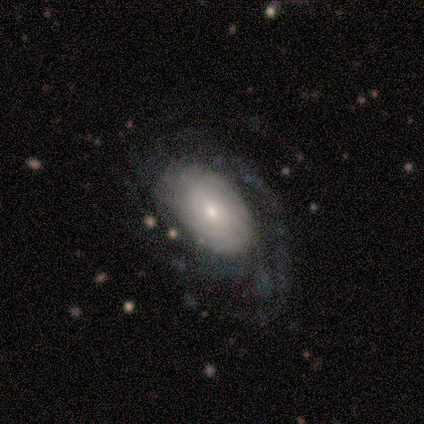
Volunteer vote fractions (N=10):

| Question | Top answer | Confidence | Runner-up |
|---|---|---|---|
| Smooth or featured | featured or disk | 90% | smooth (10%) |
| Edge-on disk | no | 100% | — |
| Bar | no | 100% | — |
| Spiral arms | yes | 100% | — |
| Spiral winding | medium | 44% | tight (33%) |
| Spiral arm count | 3 | 33% | tied: more than 4 (33%) |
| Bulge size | small | 56% | moderate (22%) |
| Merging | none | 50% | major disturbance (40%) |